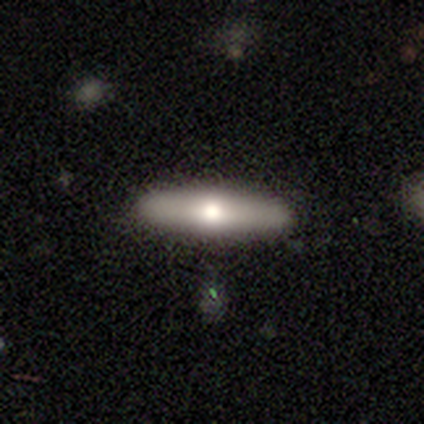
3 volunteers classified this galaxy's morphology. A featured or disk galaxy (67%) viewed edge-on (100%) with a boxy central bulge (50%, tied with rounded). Merging: none (67%).